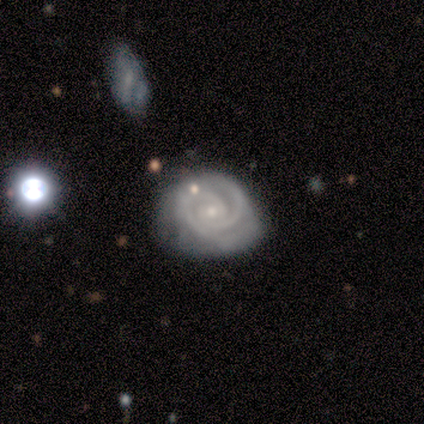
A featured or disk galaxy (85%) with no bar (68%), 2 (58%) tight (85%) spiral arms (97%) and a small central bulge (79%).

Vote fractions:
- Smooth or featured? featured or disk: 85% / smooth: 10% / star or artifact: 5%
- Edge-on disk? no: 100% / yes: 0%
- Bar? no: 68% / weak: 29% / strong: 3%
- Spiral arms? yes: 97% / no: 3%
- Spiral winding? tight: 85% / medium: 15% / loose: 0%
- Spiral arm count? 2: 58% / can't tell: 21% / 3: 18% / more than 4: 3% / 1: 0% / 4: 0%
- Bulge size? small: 79% / moderate: 21% / dominant: 0% / large: 0% / none: 0%
- Merging? none: 42% (tied) / minor disturbance: 42% (tied) / merger: 11% / major disturbance: 5%